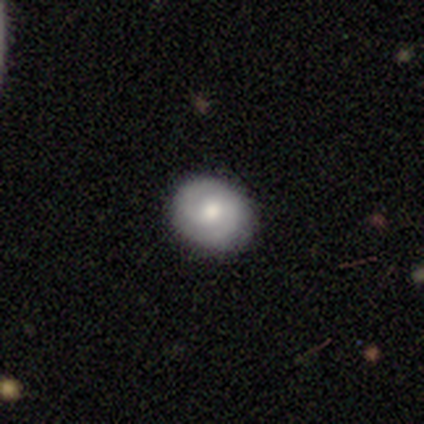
smooth_or_featured: smooth (p=0.54) [alt: featured or disk p=0.46]
how_rounded: round (p=0.68) [alt: in between p=0.32]
merging: none (p=0.91) [alt: minor disturbance p=0.09]